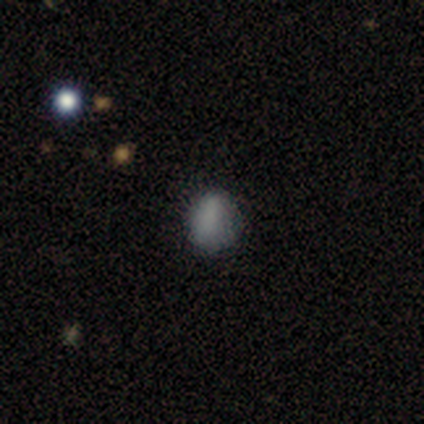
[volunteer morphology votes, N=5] smooth 80%, star or artifact 20%, featured or disk 0%. Down the decision tree: how rounded — round (50%, tied with in between); merging — none (50%, tied with minor disturbance).